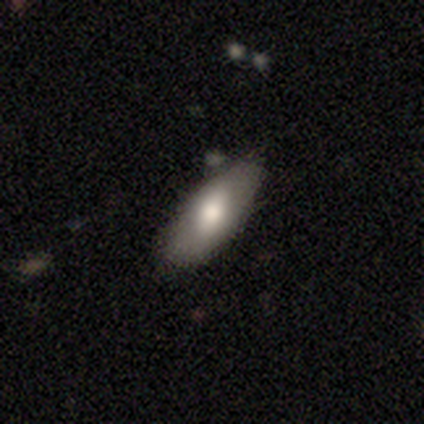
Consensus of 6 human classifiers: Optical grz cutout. It shows a smooth galaxy with no disk features (67%) that is in between round and cigar-shaped (100%). Merging: none (83%).